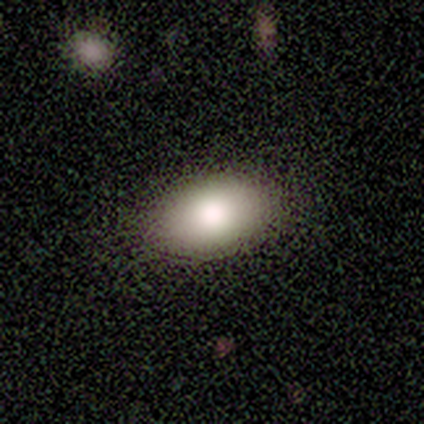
This appears to be a smooth galaxy with no disk features (88%) that is in between round and cigar-shaped (86%). Merging: none (50%, tied with minor disturbance).